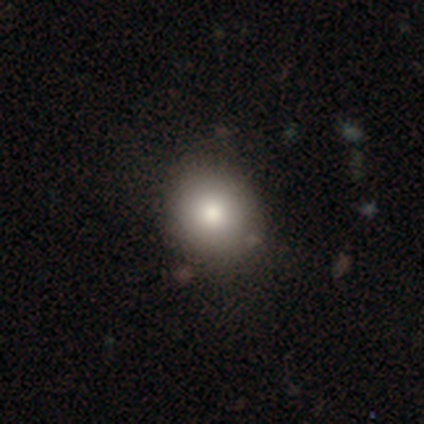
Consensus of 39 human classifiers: Smooth or featured?
  - smooth: 74% *
  - star or artifact: 15%
  - featured or disk: 10%
How rounded?
  - round: 90% *
  - in between: 10%
  - cigar-shaped: 0%
Merging?
  - none: 79% *
  - minor disturbance: 9%
  - major disturbance: 9%
  - merger: 3%